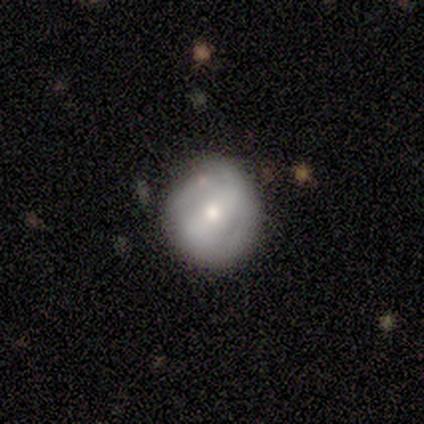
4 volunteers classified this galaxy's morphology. This is likely a smooth galaxy (75%). How rounded: clearly round (100%). Merging: clearly none (100%).